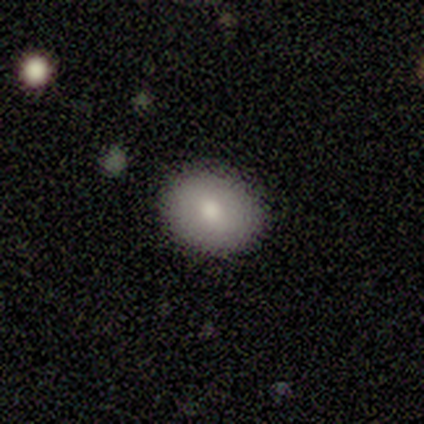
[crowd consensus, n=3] smooth-or-featured: smooth: 67% | featured or disk: 33% | star or artifact: 0%
  how-rounded: round: 50% (tied) | in between: 50% (tied) | cigar-shaped: 0%
  merging: none: 67% | minor disturbance: 33% | major disturbance: 0% | merger: 0%